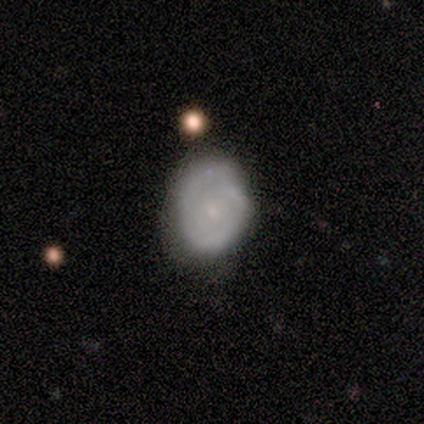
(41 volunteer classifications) Smooth or featured?
  - smooth: 44% *
  - featured or disk: 41%
  - star or artifact: 15%
How rounded?
  - in between: 67% *
  - round: 33%
  - cigar-shaped: 0%
Merging?
  - none: 51% *
  - minor disturbance: 37%
  - major disturbance: 6%
  - merger: 6%